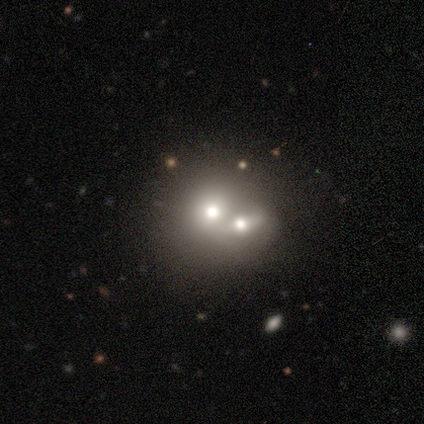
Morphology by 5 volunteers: A smooth galaxy with no disk features (60%) that is round (67%). Merging: merger (80%).